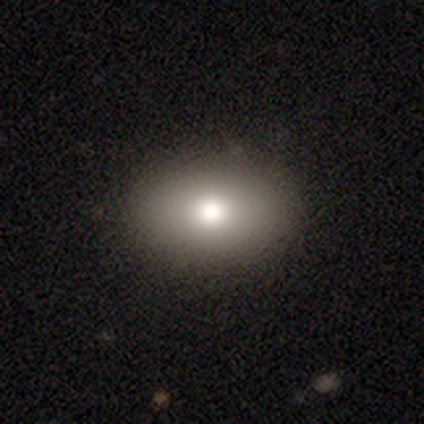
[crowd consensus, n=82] smooth 76%, featured or disk 13%, star or artifact 11%. Down the decision tree: how rounded — in between (82%); merging — none (90%).